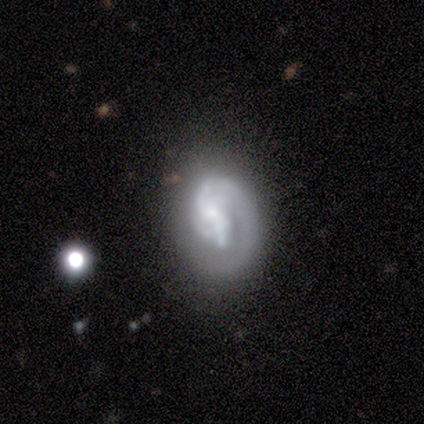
This is clearly a featured or disk galaxy (100%). It is clearly not viewed edge-on (100%). Bar: likely weak (60%). Spiral arm pattern: clearly yes (100%). Spiral arm count: marginally 1 (40%, tied with 2). Spiral winding: marginally tight (40%, tied with loose). Central bulge: likely small (60%). Merging: marginally none (40%, tied with major disturbance).